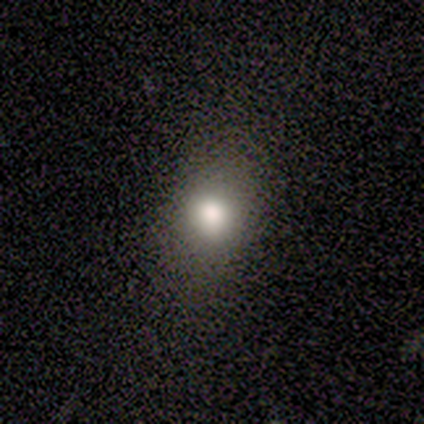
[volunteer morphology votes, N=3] This is likely a smooth galaxy (67%). How rounded: possibly round (50%, tied with in between). Merging: clearly none (100%).